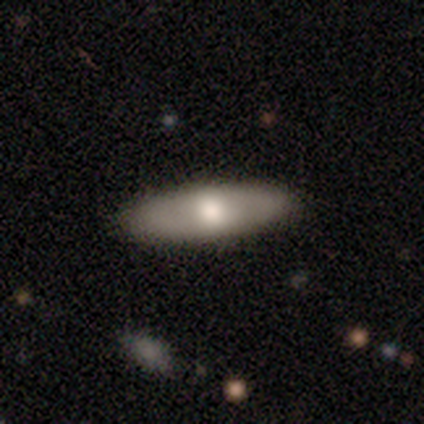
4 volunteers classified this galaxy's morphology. Volunteers were most divided on "smooth or featured": smooth: 75%, featured or disk: 25%, star or artifact: 0%. More confident: how rounded — cigar-shaped (100%); merging — none (100%).